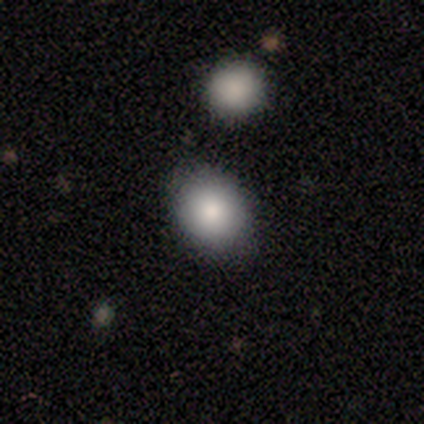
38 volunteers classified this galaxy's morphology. Volunteers were most divided on "how rounded": in between: 62%, round: 34%, cigar-shaped: 3%. More confident: smooth or featured — smooth (84%); merging — none (83%).